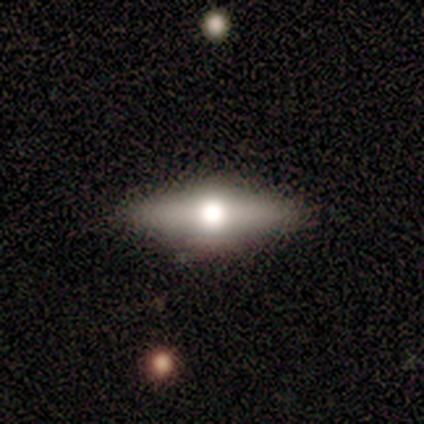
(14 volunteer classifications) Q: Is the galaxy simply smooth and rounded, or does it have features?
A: featured or disk — 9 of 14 (64%).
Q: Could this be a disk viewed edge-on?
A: yes — 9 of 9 (100%).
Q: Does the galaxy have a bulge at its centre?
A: rounded — 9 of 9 (100%).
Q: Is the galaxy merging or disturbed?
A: none — 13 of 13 (100%).